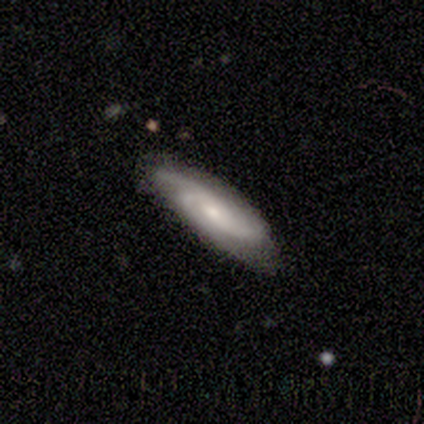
Overall: featured or disk (100%). Edge-on disk: no (60%; yes 40%). Bar: weak (67%; no 33%). Spiral arms: yes (100%). Spiral arm count: 3 (67%; 2 33%). Spiral winding: medium (67%; loose 33%). Bulge size: small (67%; moderate 33%). Merging: none (80%).